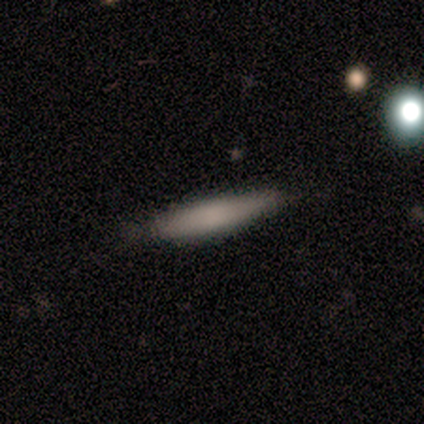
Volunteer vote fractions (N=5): Smooth or featured: smooth — 80% (star or artifact — 20%)
How rounded: cigar-shaped — 100%
Merging: minor disturbance — 75% (none — 25%)